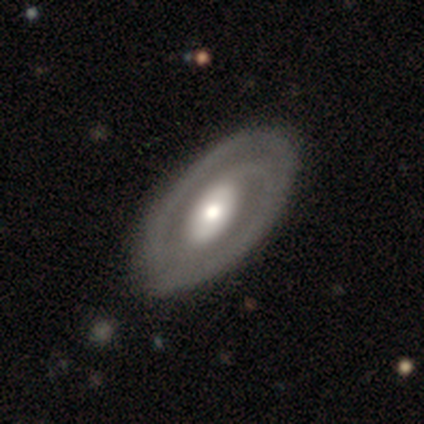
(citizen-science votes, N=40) Morphology: type=featured or disk (70%); edge-on=no (96%); bar=no (52%); spiral arms=yes (81%); winding=tight (41%, tied with medium); arm count=2 (77%); bulge=moderate (74%); merging=none (72%).